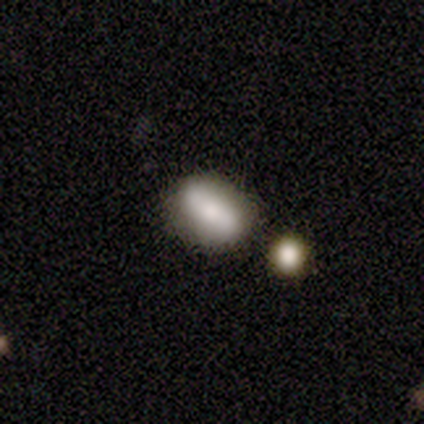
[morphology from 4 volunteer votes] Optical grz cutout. It shows a smooth galaxy with no disk features (75%) that is in between round and cigar-shaped (100%). Merging: none (75%).